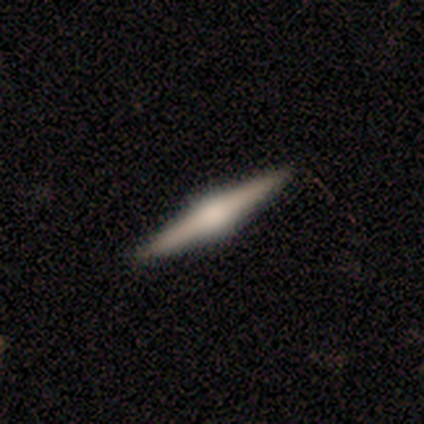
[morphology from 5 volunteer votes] Q: Smooth or featured?
A: featured or disk (100%)
Q: Edge-on disk?
A: yes (100%)
Q: Edge-on bulge?
A: rounded (100%)
Q: Merging?
A: none (100%)